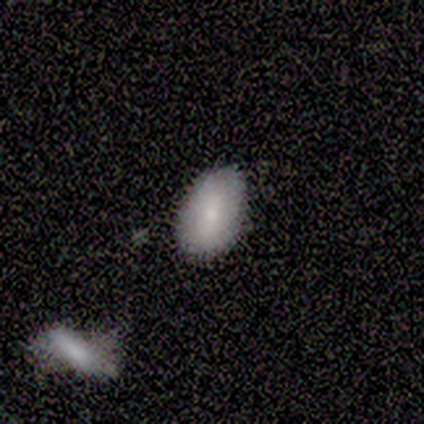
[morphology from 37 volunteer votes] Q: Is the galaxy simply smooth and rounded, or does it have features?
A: smooth — 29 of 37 (78%).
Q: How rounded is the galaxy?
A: in between — 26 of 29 (90%).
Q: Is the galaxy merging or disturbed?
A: none — 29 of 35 (83%).